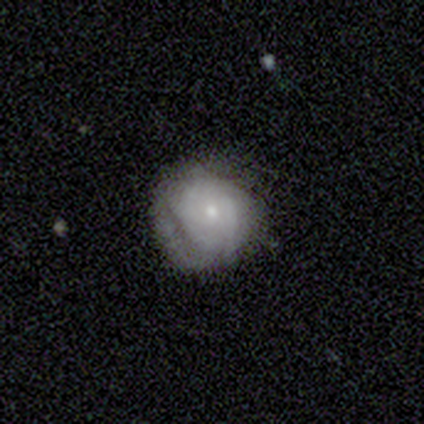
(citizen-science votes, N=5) A featured or disk galaxy (60%) with no bar (67%), tight (100%) spiral arms (100%) and a small central bulge (100%). Merging: none (80%).